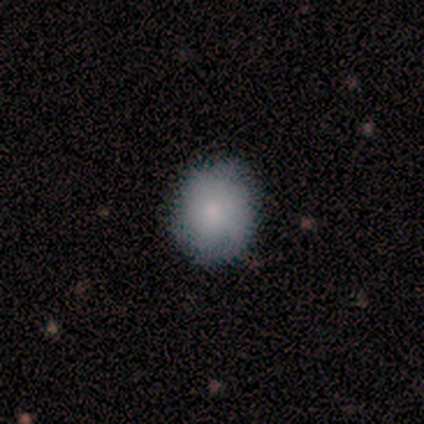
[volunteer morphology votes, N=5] A smooth galaxy with no disk features (60%) that is round (67%).

Vote fractions:
- Smooth or featured? smooth: 60% / star or artifact: 40% / featured or disk: 0%
- How rounded? round: 67% / in between: 33% / cigar-shaped: 0%
- Merging? none: 67% / minor disturbance: 33% / major disturbance: 0% / merger: 0%